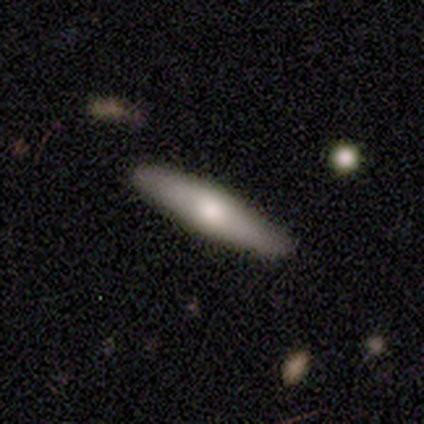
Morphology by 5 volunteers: Smooth or featured? 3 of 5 (60%) said smooth. How rounded? 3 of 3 (100%) said cigar-shaped. Merging? 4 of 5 (80%) said none.